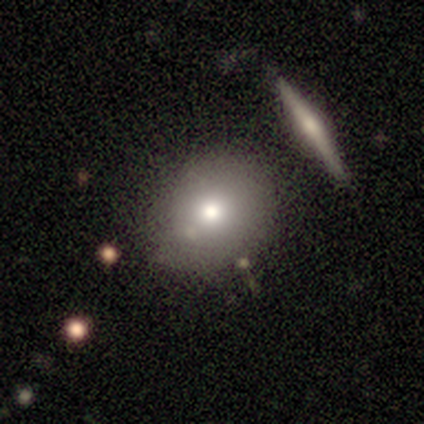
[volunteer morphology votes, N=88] A smooth galaxy with no disk features (80%) that is round (60%). Merging: none (71%).